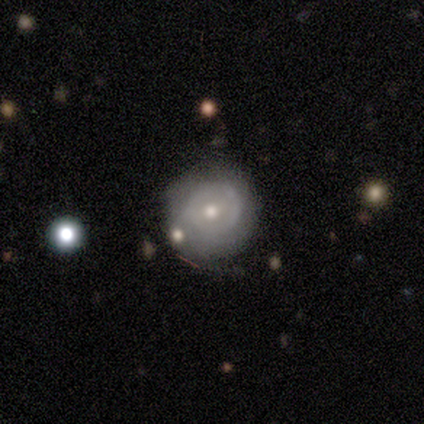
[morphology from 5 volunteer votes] Smooth or featured?
  - smooth: 80% *
  - featured or disk: 20%
  - star or artifact: 0%
How rounded?
  - round: 75% *
  - in between: 25%
  - cigar-shaped: 0%
Merging?
  - none: 60% *
  - minor disturbance: 20%
  - merger: 20%
  - major disturbance: 0%